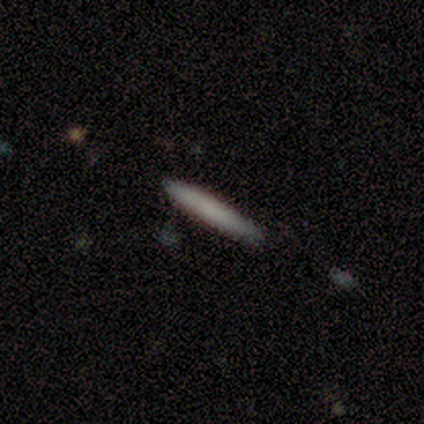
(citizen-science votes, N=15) Morphology: type=smooth (87%); roundness=cigar-shaped (92%); merging=none (87%).